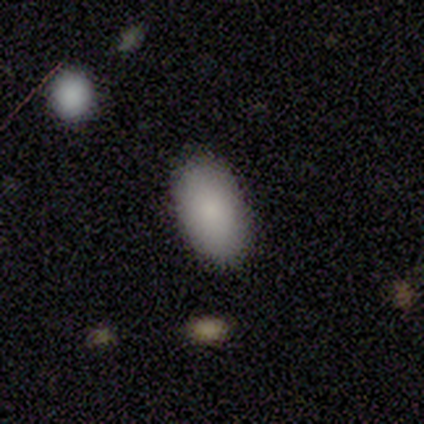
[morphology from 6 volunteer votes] This appears to be a smooth galaxy with no disk features (83%) that is in between round and cigar-shaped (100%). Merging: none (100%).